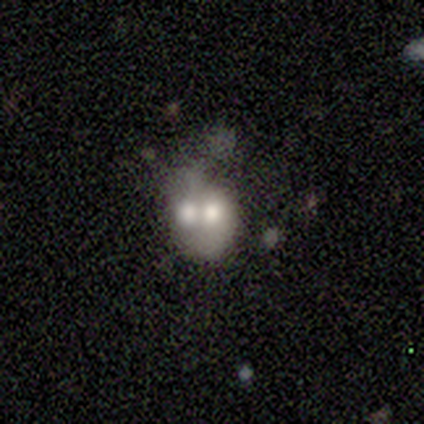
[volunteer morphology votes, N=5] This appears to be a featured or disk galaxy (80%) with no bar (100%), no spiral arms (100%) and a moderate central bulge (75%). Merging: merger (80%).